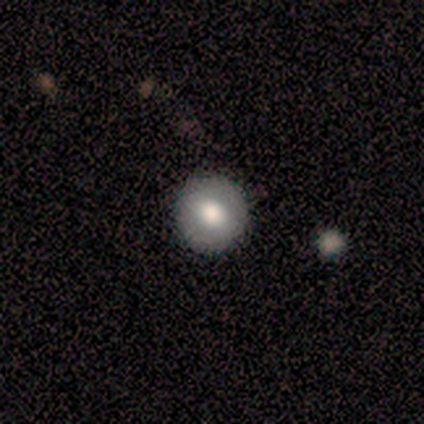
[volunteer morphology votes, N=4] Smooth or featured: smooth — 50% (tied with star or artifact — 50%)
How rounded: round — 100%
Merging: none — 100%